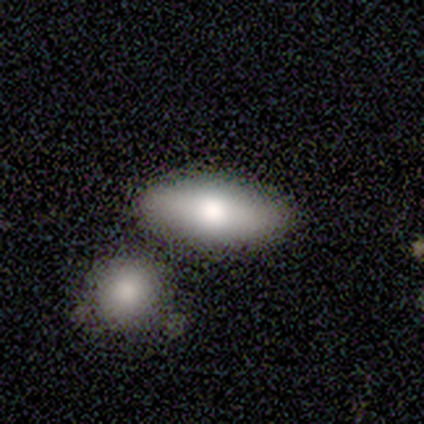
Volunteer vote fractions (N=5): smooth 100%, featured or disk 0%, star or artifact 0%. Down the decision tree: how rounded — in between (80%); merging — none (80%).